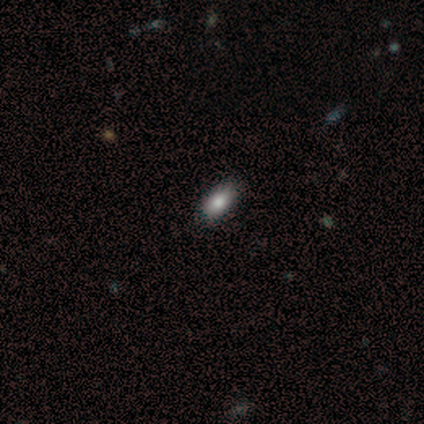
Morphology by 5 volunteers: This is clearly a smooth galaxy (100%). How rounded: clearly in between (100%). Merging: clearly none (100%).